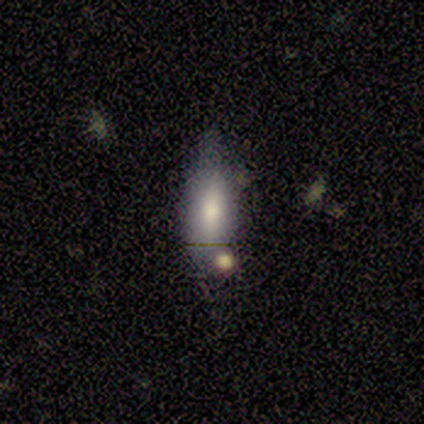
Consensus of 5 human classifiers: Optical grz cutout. It shows a smooth galaxy with no disk features (60%) that is in between round and cigar-shaped (100%). Merging: none (80%).